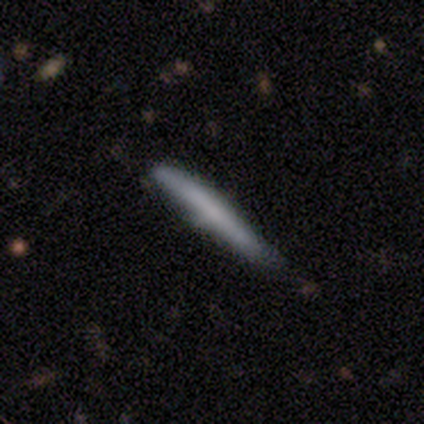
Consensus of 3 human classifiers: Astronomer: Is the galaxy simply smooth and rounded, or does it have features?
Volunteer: smooth — 100%.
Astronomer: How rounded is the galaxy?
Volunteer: cigar-shaped — 100%.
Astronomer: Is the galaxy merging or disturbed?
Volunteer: minor disturbance — 67%.